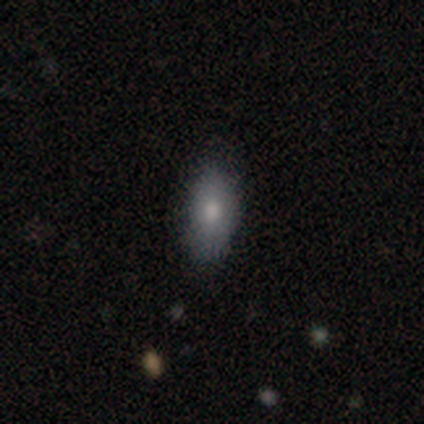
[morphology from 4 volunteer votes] Smooth or featured?
  - smooth: 100% *
  - featured or disk: 0%
  - star or artifact: 0%
How rounded?
  - in between: 100% *
  - round: 0%
  - cigar-shaped: 0%
Merging?
  - none: 100% *
  - minor disturbance: 0%
  - major disturbance: 0%
  - merger: 0%